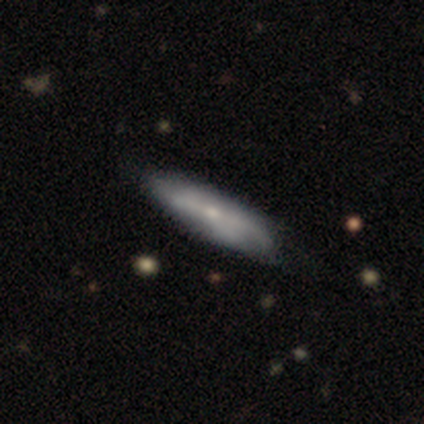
Morphology: type=featured or disk (62%); edge-on=no (62%); bar=no (67%); spiral arms=yes (53%); winding=loose (50%); arm count=2 (38%); bulge=small (60%); merging=none (54%).